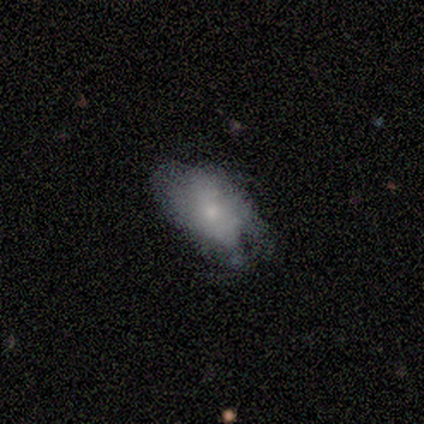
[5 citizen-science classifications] smooth 60%, featured or disk 40%, star or artifact 0%. Down the decision tree: how rounded — in between (67%); merging — none (60%).